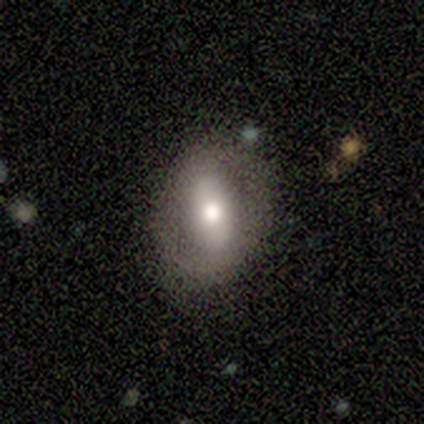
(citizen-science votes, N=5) Smooth or featured? 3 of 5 (60%) said smooth. How rounded? 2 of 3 (67%) said in between. Merging? 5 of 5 (100%) said none.